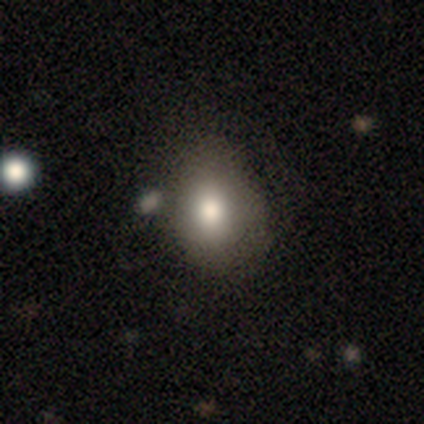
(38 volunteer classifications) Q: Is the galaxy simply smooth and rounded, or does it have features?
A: smooth — 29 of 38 (76%).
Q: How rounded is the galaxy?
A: round — 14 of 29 (48%, tied with in between).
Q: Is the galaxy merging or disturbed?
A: none — 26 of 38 (68%).